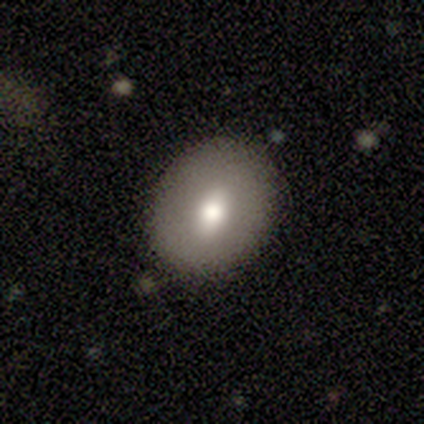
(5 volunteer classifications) Morphology: type=smooth (60%); roundness=round (67%); merging=none (100%).